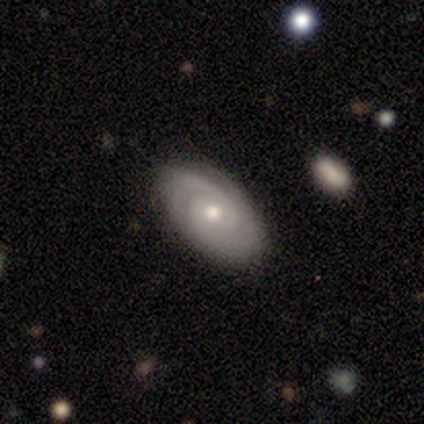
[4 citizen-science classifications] smooth-or-featured: featured or disk: 75% | smooth: 25% | star or artifact: 0%
  disk-edge-on: no: 100% | yes: 0%
    bar: no: 67% | weak: 33% | strong: 0%
    has-spiral-arms: yes: 100% | no: 0%
      spiral-winding: tight: 67% | medium: 33% | loose: 0%
      spiral-arm-count: 2: 67% | can't tell: 33% | 1: 0% | 3: 0% | 4: 0% | more than 4: 0%
    bulge-size: moderate: 100% | dominant: 0% | large: 0% | small: 0% | none: 0%
  merging: none: 100% | minor disturbance: 0% | major disturbance: 0% | merger: 0%